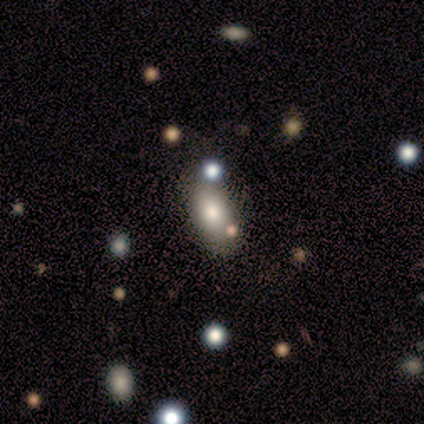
smooth_or_featured: smooth (p=0.75) [alt: star or artifact p=0.25]
how_rounded: in between (p=1.00)
merging: none (p=0.67) [alt: major disturbance p=0.33]